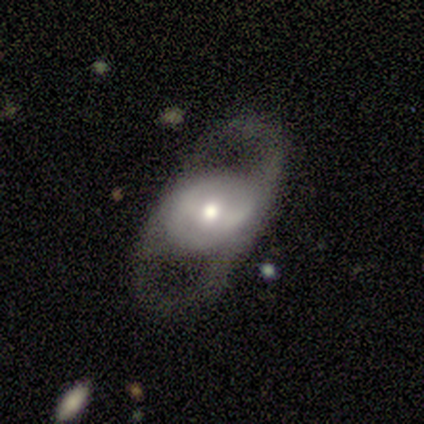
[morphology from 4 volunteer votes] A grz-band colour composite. It shows a smooth galaxy with no disk features (75%) that is round (67%). Merging: none (75%).